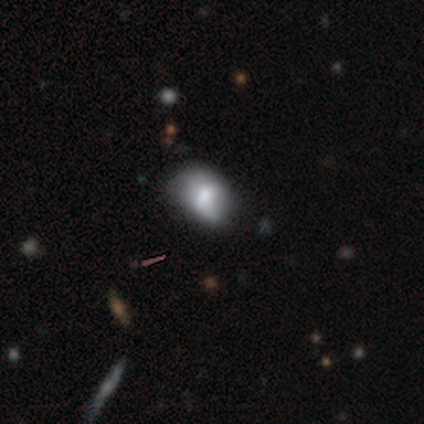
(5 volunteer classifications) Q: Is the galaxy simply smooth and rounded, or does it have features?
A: smooth — 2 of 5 (40%, tied with star or artifact).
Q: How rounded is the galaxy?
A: in between — 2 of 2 (100%).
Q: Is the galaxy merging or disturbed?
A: none — 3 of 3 (100%).